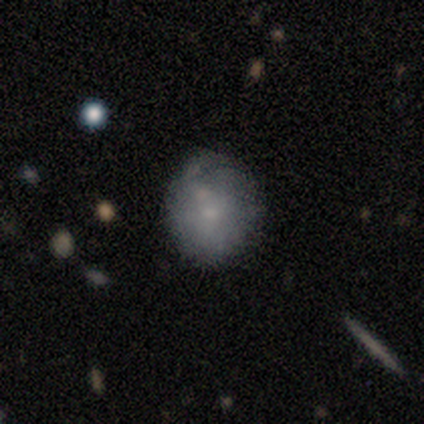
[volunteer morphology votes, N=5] This appears to be a smooth galaxy with no disk features (60%) that is round (100%). Merging: none (75%).